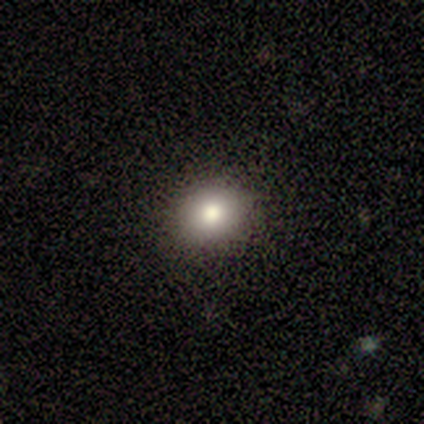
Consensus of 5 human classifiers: This is likely a smooth galaxy (60%). How rounded: clearly round (100%). Merging: clearly none (100%).